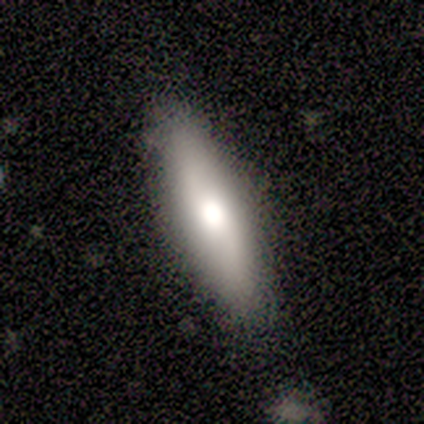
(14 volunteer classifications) Smooth or featured?
  - smooth: 71% *
  - featured or disk: 29%
  - star or artifact: 0%
How rounded?
  - in between: 50% * (tied)
  - cigar-shaped: 50% * (tied)
  - round: 0%
Merging?
  - none: 86% *
  - minor disturbance: 14%
  - major disturbance: 0%
  - merger: 0%